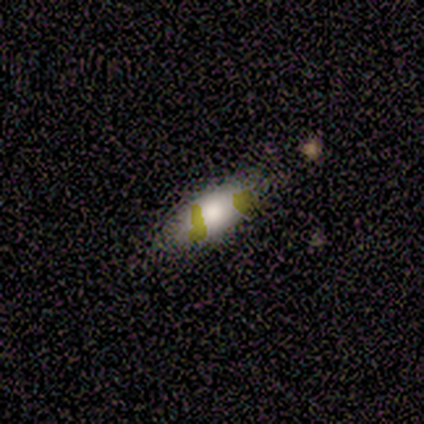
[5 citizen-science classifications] smooth-or-featured: smooth: 60% | star or artifact: 40% | featured or disk: 0%
  how-rounded: in between: 67% | cigar-shaped: 33% | round: 0%
  merging: none: 67% | minor disturbance: 33% | major disturbance: 0% | merger: 0%